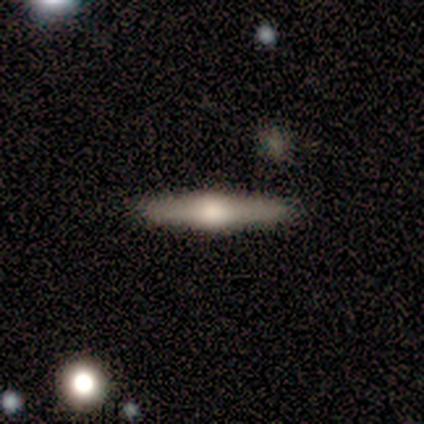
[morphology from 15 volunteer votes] Q: Smooth or featured?
A: featured or disk (80%); runner-up: smooth (20%)
Q: Edge-on disk?
A: yes (100%)
Q: Edge-on bulge?
A: rounded (92%); runner-up: none (8%)
Q: Merging?
A: none (93%); runner-up: minor disturbance (7%)